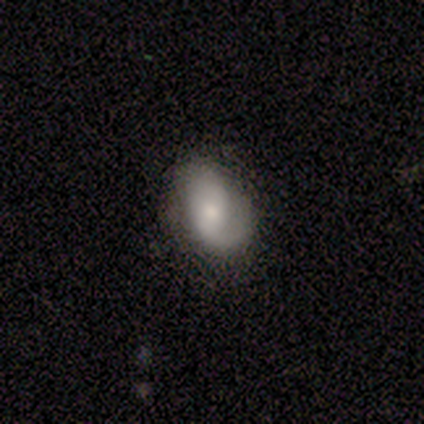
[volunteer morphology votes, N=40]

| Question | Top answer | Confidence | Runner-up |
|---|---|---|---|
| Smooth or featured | featured or disk | 65% | smooth (30%) |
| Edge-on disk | no | 92% | yes (8%) |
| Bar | weak | 46% | no (42%) |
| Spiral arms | yes | 88% | no (12%) |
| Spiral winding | loose | 48% | medium (38%) |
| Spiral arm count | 2 | 62% | 1 (33%) |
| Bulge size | moderate | 54% | small (38%) |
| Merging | none | 71% | minor disturbance (18%) |